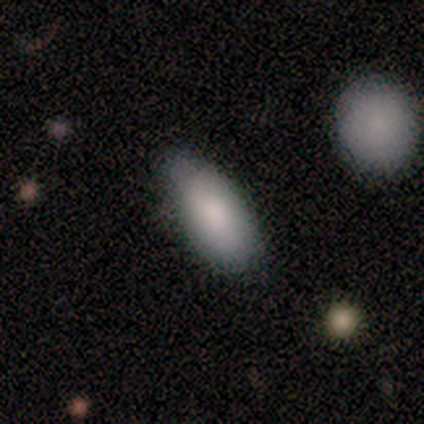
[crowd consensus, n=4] smooth-or-featured: smooth: 75% | featured or disk: 25% | star or artifact: 0%
  how-rounded: in between: 100% | round: 0% | cigar-shaped: 0%
  merging: none: 50% (tied) | minor disturbance: 50% (tied) | major disturbance: 0% | merger: 0%